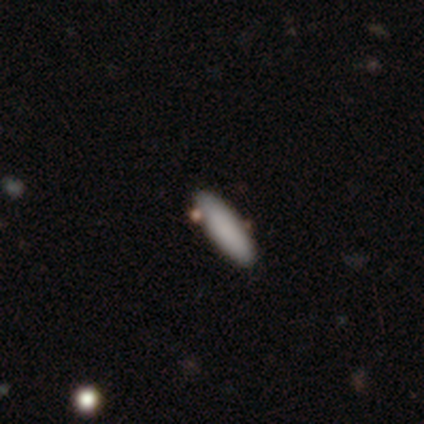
Smooth or featured? 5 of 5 (100%) said smooth. How rounded? 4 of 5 (80%) said cigar-shaped. Merging? 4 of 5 (80%) said none.